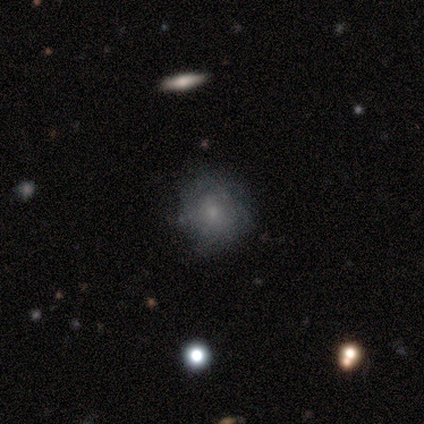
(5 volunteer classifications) Smooth or featured? smooth (80%)
How rounded? round (100%)
Merging? none (80%)